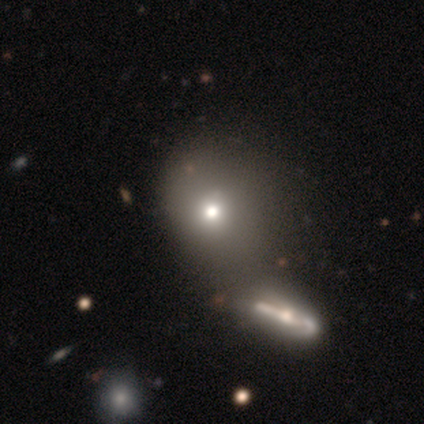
Smooth or featured?
  - smooth: 60% *
  - featured or disk: 20%
  - star or artifact: 20%
How rounded?
  - in between: 67% *
  - round: 33%
  - cigar-shaped: 0%
Merging?
  - none: 50% *
  - minor disturbance: 25%
  - merger: 25%
  - major disturbance: 0%